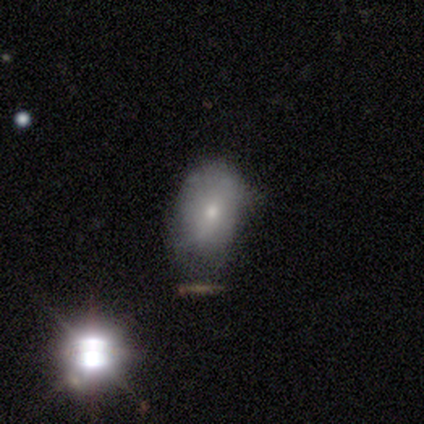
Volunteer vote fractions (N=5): A smooth galaxy with no disk features (60%) that is in between round and cigar-shaped (100%). Merging: none (75%).